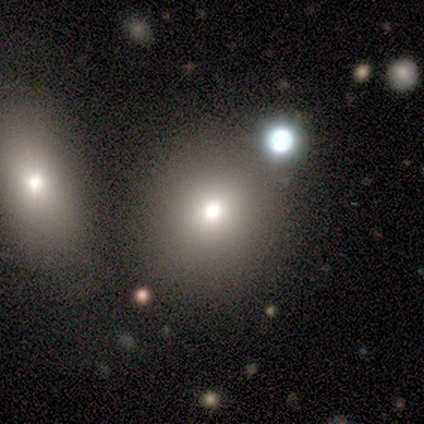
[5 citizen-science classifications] A smooth galaxy with no disk features (60%) that is round (67%).

Vote fractions:
- Smooth or featured? smooth: 60% / featured or disk: 20% / star or artifact: 20%
- How rounded? round: 67% / in between: 33% / cigar-shaped: 0%
- Merging? none: 75% / major disturbance: 25% / minor disturbance: 0% / merger: 0%